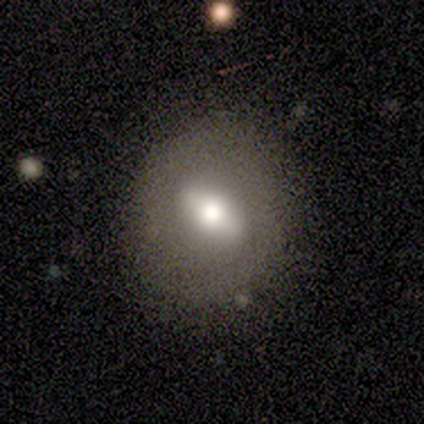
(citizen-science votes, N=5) Smooth or featured?
  - smooth: 100% *
  - featured or disk: 0%
  - star or artifact: 0%
How rounded?
  - in between: 80% *
  - round: 20%
  - cigar-shaped: 0%
Merging?
  - none: 60% *
  - minor disturbance: 40%
  - major disturbance: 0%
  - merger: 0%